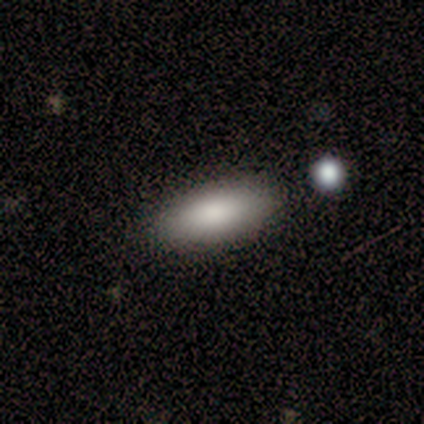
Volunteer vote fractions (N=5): smooth-or-featured: smooth: 60% | featured or disk: 20% | star or artifact: 20%
  how-rounded: in between: 100% | round: 0% | cigar-shaped: 0%
  merging: none: 75% | merger: 25% | minor disturbance: 0% | major disturbance: 0%